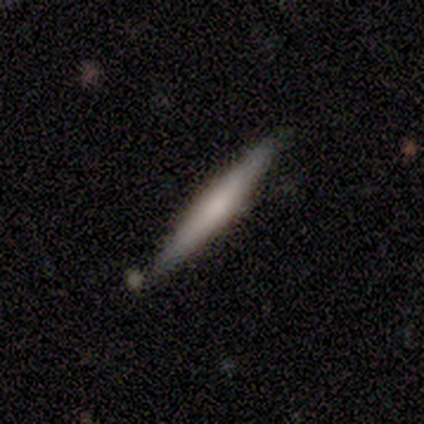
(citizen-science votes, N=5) Smooth or featured? 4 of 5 (80%) said smooth. How rounded? 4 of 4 (100%) said cigar-shaped. Merging? 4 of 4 (100%) said none.